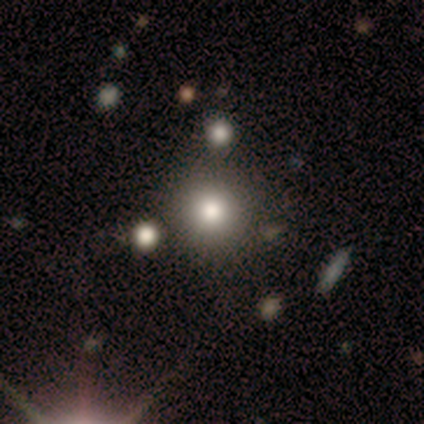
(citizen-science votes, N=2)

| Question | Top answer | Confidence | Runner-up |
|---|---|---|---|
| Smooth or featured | smooth | 50% | tied: featured or disk (50%) |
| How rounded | round | 100% | — |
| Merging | none | 100% | — |